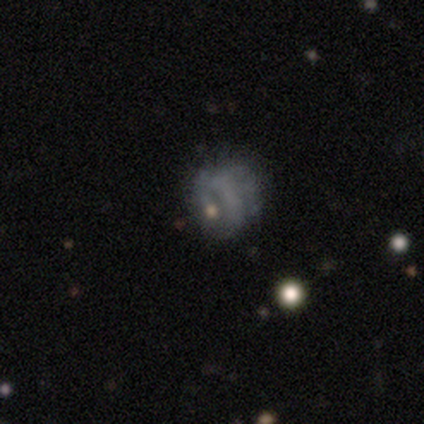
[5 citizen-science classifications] Morphology: type=featured or disk (60%); edge-on=no (100%); bar=no (67%); spiral arms=yes (67%); winding=tight (100%); arm count=1 (50%, tied with can't tell); bulge=small (67%); merging=none (25%, tied with minor disturbance, major disturbance and merger).